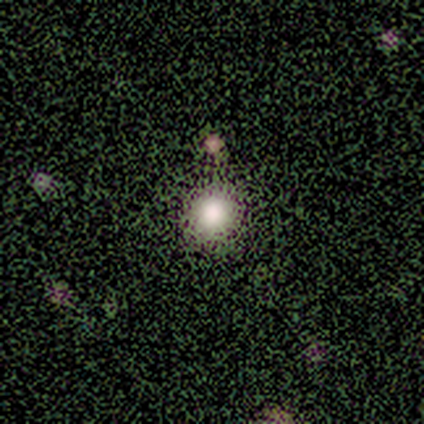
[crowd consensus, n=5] Smooth or featured? 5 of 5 (100%) said smooth. How rounded? 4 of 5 (80%) said round. Merging? 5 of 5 (100%) said none.